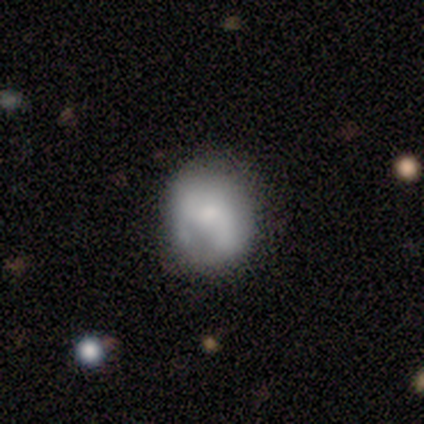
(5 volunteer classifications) This appears to be a smooth galaxy with no disk features (60%) that is round (67%). Merging: none (80%).